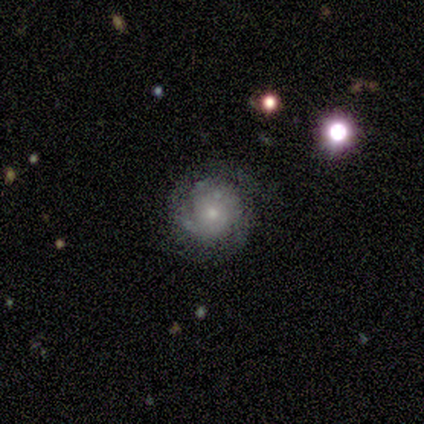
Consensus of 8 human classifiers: A featured or disk galaxy (100%) with no bar (100%), 2 (75%) tight (50%, tied with medium) spiral arms (100%) and a small central bulge (62%). Merging: none (100%).